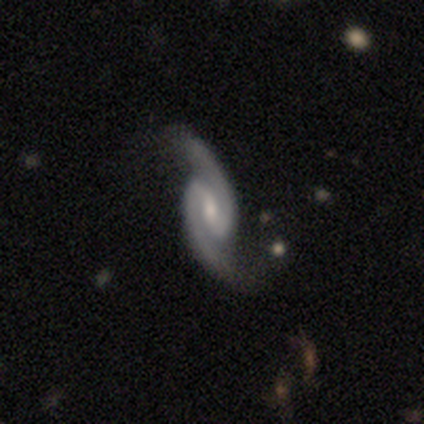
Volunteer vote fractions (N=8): A featured or disk galaxy (100%) with a strong bar (43%), 2 (100%) medium (43%) spiral arms (100%) and a small central bulge (57%). Merging: none (88%).